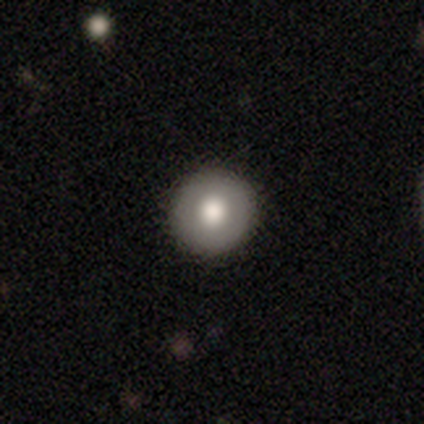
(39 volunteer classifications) This is likely a smooth galaxy (72%). How rounded: clearly round (100%). Merging: clearly none (95%).